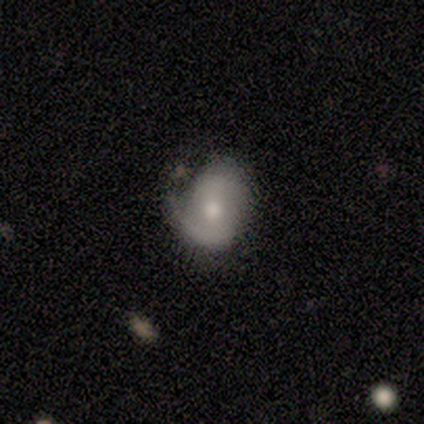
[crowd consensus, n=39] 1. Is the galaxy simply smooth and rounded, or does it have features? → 69% featured or disk, 28% smooth, 3% star or artifact.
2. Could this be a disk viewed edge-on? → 93% no, 7% yes.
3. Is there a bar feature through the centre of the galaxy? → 60% no, 40% weak, 0% strong.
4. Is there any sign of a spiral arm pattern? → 76% yes, 24% no.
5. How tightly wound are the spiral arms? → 42% loose, 37% medium, 21% tight.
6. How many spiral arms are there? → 53% 2, 42% 1, 5% can't tell, 0% 3, 0% 4, 0% more than 4.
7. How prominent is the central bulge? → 56% moderate, 36% small, 4% large, 4% none, 0% dominant.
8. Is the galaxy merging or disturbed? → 58% none, 34% minor disturbance, 8% major disturbance, 0% merger.